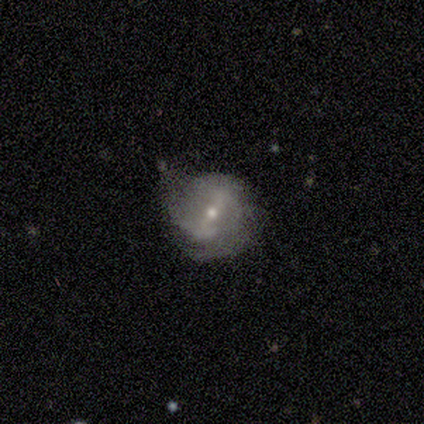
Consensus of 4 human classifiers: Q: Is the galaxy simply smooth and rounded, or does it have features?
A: featured or disk — 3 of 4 (75%).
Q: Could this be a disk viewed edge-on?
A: no — 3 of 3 (100%).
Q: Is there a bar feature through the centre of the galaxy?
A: weak — 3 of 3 (100%).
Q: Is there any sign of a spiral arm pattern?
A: yes — 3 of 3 (100%).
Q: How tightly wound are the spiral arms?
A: loose — 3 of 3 (100%).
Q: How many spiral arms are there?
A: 2 — 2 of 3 (67%).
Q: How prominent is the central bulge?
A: small — 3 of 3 (100%).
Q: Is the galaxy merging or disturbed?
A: none — 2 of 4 (50%, tied with minor disturbance).